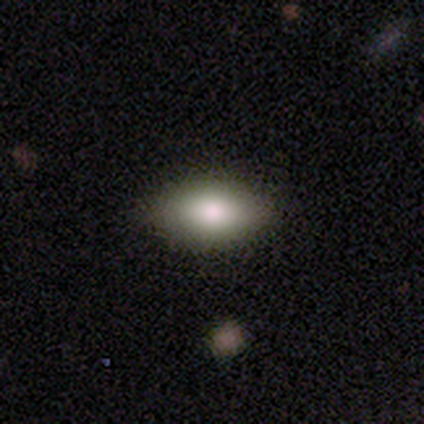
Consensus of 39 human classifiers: smooth-or-featured: smooth: 74% | featured or disk: 13% | star or artifact: 13%
  how-rounded: in between: 97% | round: 3% | cigar-shaped: 0%
  merging: none: 85% | major disturbance: 9% | minor disturbance: 6% | merger: 0%